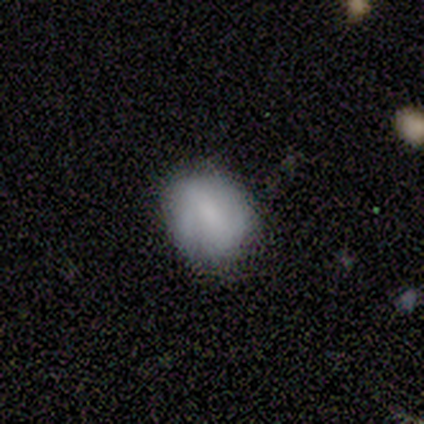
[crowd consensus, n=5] Volunteers were most divided on "merging": minor disturbance: 60%, none: 40%, major disturbance: 0%, merger: 0%. More confident: edge-on disk — no (100%); spiral arms — no (100%); smooth or featured — featured or disk (80%); bar — no (75%); bulge size — none (50%).